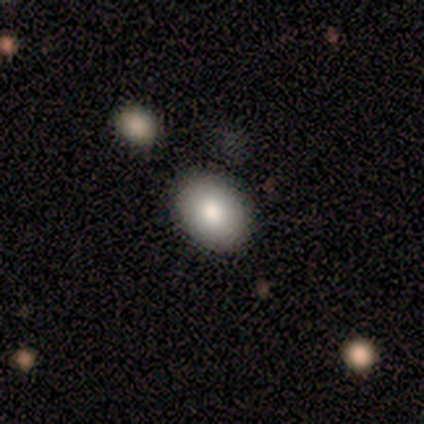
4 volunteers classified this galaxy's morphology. Q: Smooth or featured?
A: smooth (50%); tied with: featured or disk (50%)
Q: How rounded?
A: in between (100%)
Q: Merging?
A: none (75%); runner-up: major disturbance (25%)